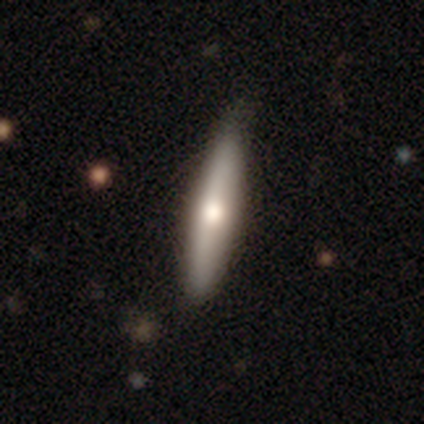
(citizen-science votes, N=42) This is possibly a smooth galaxy (60%). How rounded: clearly cigar-shaped (92%). Merging: clearly none (85%).